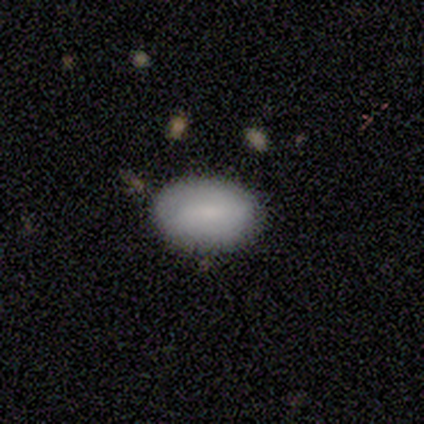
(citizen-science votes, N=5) Morphology: type=smooth (100%); roundness=in between (80%); merging=none (100%).